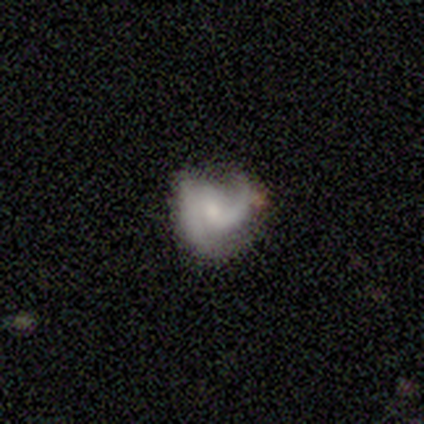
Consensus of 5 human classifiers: Volunteers were most divided on "bulge size" (2-way tie): small: 40%, none: 40%, moderate: 20%, dominant: 0%, large: 0%. More confident: smooth or featured — featured or disk (100%); edge-on disk — no (100%); spiral arms — yes (80%); spiral winding — loose (75%); spiral arm count — 1 (75%); bar — weak (60%); merging — none (60%).